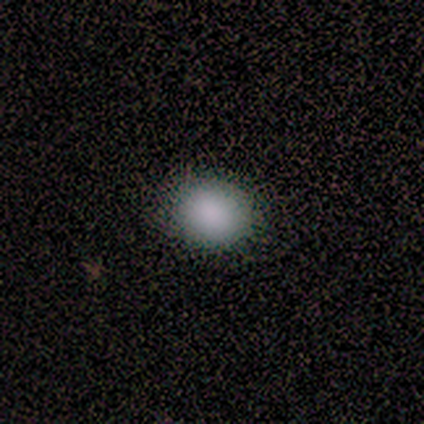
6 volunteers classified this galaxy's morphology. Smooth or featured? smooth (100%)
How rounded? round (83%)
Merging? none (83%)